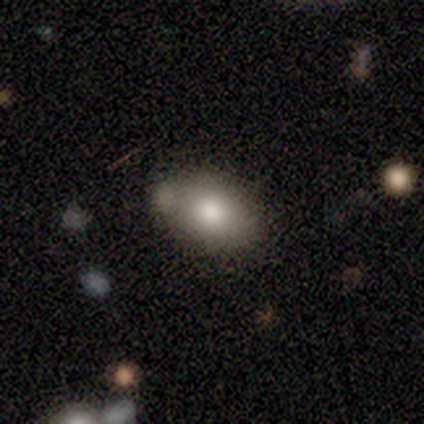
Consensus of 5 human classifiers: This appears to be a smooth galaxy with no disk features (100%) that is in between round and cigar-shaped (80%). Merging: none (100%).